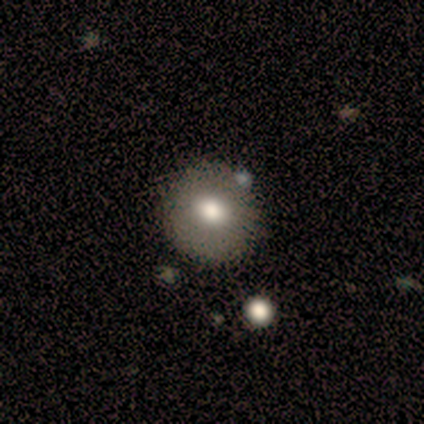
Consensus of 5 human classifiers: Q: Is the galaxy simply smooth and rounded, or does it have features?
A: smooth — 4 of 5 (80%).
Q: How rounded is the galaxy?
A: round — 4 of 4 (100%).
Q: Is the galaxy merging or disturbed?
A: none — 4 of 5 (80%).